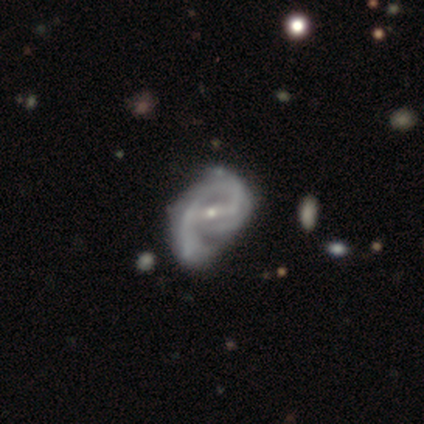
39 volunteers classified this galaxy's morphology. smooth-or-featured: featured or disk: 95% | smooth: 3% | star or artifact: 3%
  disk-edge-on: no: 95% | yes: 5%
    bar: strong: 54% | weak: 34% | no: 11%
    has-spiral-arms: yes: 94% | no: 6%
      spiral-winding: medium: 48% | tight: 27% | loose: 24%
      spiral-arm-count: 2: 70% | 1: 15% | 3: 9% | can't tell: 6% | 4: 0% | more than 4: 0%
    bulge-size: small: 80% | moderate: 20% | dominant: 0% | large: 0% | none: 0%
  merging: minor disturbance: 29% | none: 26% | major disturbance: 16% | merger: 5%